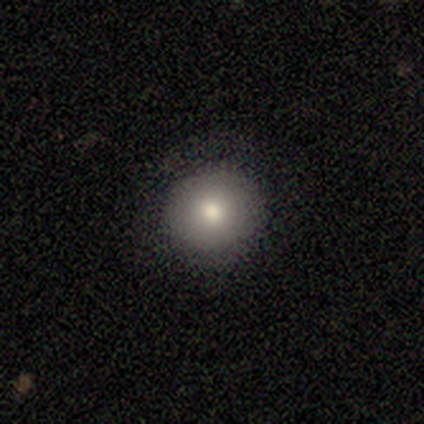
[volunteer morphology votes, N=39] type=smooth (67%); roundness=round (85%); merging=none (79%).